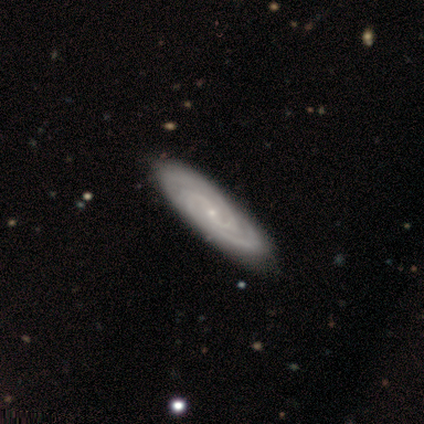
A featured or disk galaxy (75%) with no bar (67%), 2 (100%) tight (67%) spiral arms (100%) and a small central bulge (100%). Merging: none (75%).